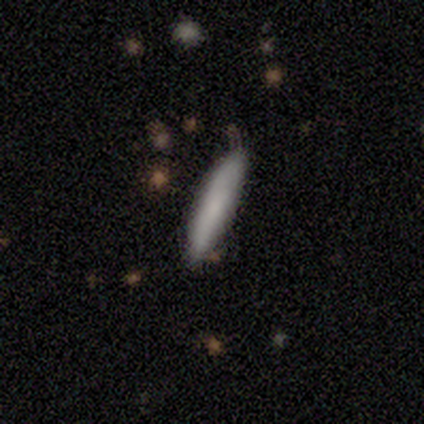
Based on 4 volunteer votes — Smooth or featured?
  - smooth: 100% *
  - featured or disk: 0%
  - star or artifact: 0%
How rounded?
  - cigar-shaped: 100% *
  - round: 0%
  - in between: 0%
Merging?
  - none: 75% *
  - minor disturbance: 25%
  - major disturbance: 0%
  - merger: 0%